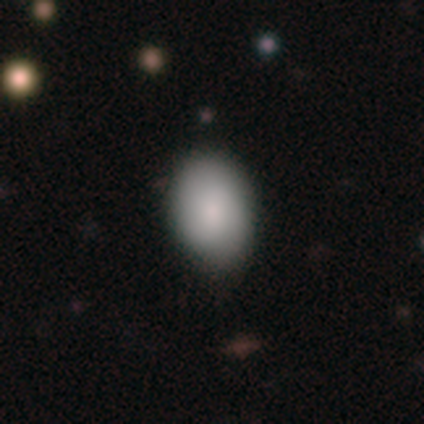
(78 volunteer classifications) smooth-or-featured: smooth: 91% | star or artifact: 8% | featured or disk: 1%
  how-rounded: in between: 92% | round: 8% | cigar-shaped: 0%
  merging: none: 32% | minor disturbance: 12% | major disturbance: 3% | merger: 3%